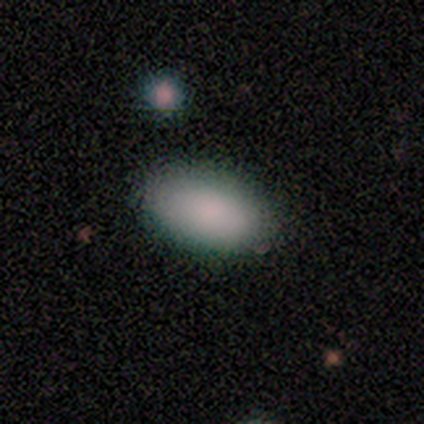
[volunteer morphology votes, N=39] This appears to be a smooth galaxy with no disk features (82%) that is in between round and cigar-shaped (100%). Merging: none (88%).